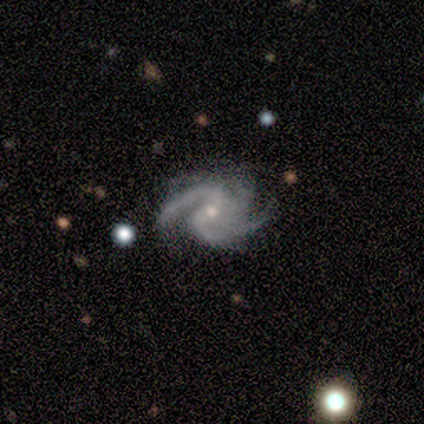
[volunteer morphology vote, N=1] Overall: featured or disk (100%). Edge-on disk: no (100%). Bar: no (100%). Spiral arms: yes (100%). Spiral arm count: 3 (100%). Spiral winding: loose (100%). Bulge size: moderate (100%). Merging: none (100%).